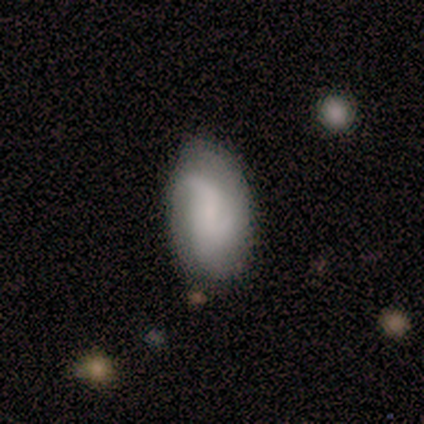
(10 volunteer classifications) A smooth galaxy with no disk features (50%, tied with featured or disk) that is in between round and cigar-shaped (100%).

Vote fractions:
- Smooth or featured? smooth: 50% (tied) / featured or disk: 50% (tied) / star or artifact: 0%
- How rounded? in between: 100% / round: 0% / cigar-shaped: 0%
- Merging? none: 90% / minor disturbance: 10% / major disturbance: 0% / merger: 0%